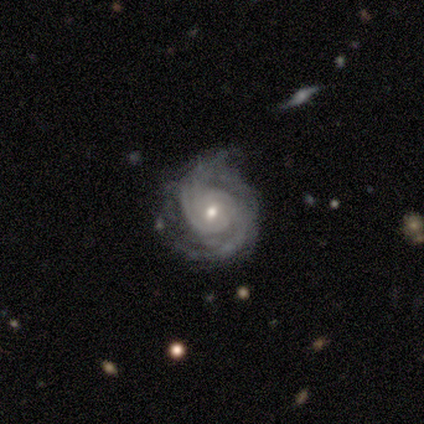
Overall: featured or disk (80%). Edge-on disk: no (100%). Bar: no (75%). Spiral arms: yes (100%). Spiral arm count: 2 (100%). Spiral winding: tight (50%, tied with medium). Bulge size: moderate (75%). Merging: none (60%; minor disturbance 20%).